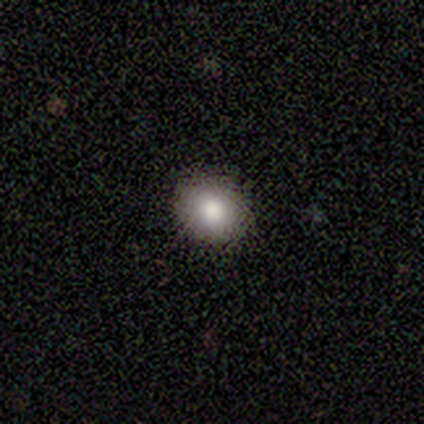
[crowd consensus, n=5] Smooth or featured: smooth — 80% (featured or disk — 20%)
How rounded: round — 100%
Merging: none — 100%